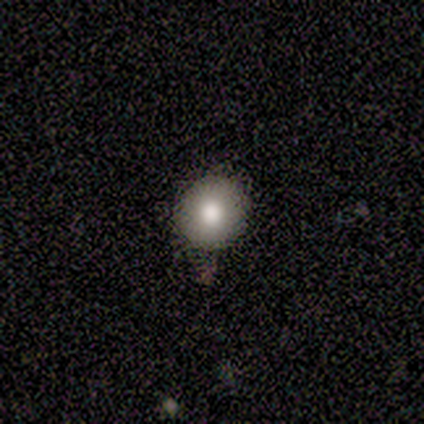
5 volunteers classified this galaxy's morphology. smooth-or-featured: smooth: 80% | featured or disk: 20% | star or artifact: 0%
  how-rounded: round: 100% | in between: 0% | cigar-shaped: 0%
  merging: none: 100% | minor disturbance: 0% | major disturbance: 0% | merger: 0%